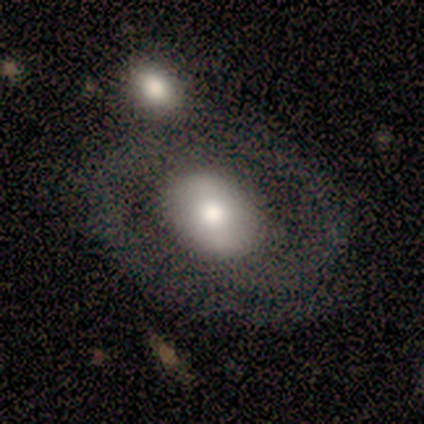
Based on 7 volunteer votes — Smooth or featured? 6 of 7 (86%) said featured or disk. Edge-on disk? 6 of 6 (100%) said no. Bar? 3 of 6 (50%, tied with no) said weak. Spiral arms? 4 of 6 (67%) said yes. Spiral winding? 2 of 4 (50%, tied with medium) said tight. Spiral arm count? 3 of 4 (75%) said 2. Bulge size? 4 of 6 (67%) said moderate. Merging? 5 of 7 (71%) said merger.